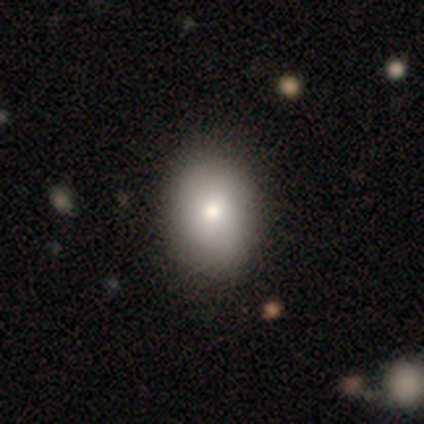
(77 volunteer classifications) Q: Smooth or featured?
A: smooth (87%); runner-up: featured or disk (10%)
Q: How rounded?
A: in between (70%); runner-up: round (30%)
Q: Merging?
A: none (44%); runner-up: minor disturbance (13%)